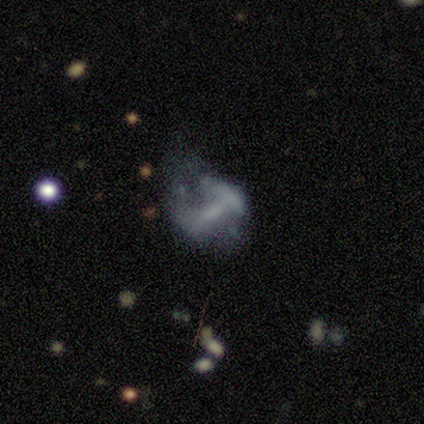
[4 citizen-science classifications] featured or disk 75%, smooth 25%, star or artifact 0%. Down the decision tree: edge-on disk — no (100%); bar — no (67%); spiral arms — no (67%); bulge size — none (67%); merging — major disturbance (75%).